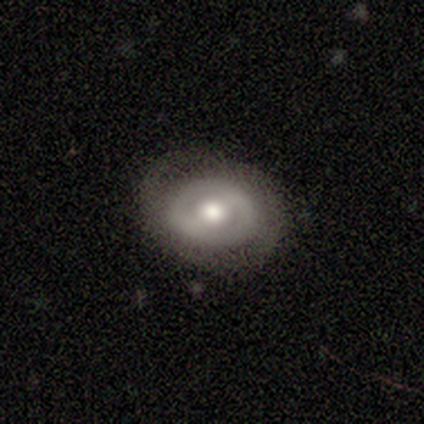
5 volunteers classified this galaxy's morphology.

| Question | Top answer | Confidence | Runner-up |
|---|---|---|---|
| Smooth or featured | featured or disk | 80% | smooth (20%) |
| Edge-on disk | no | 100% | — |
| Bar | weak | 100% | — |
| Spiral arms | yes | 75% | no (25%) |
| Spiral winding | loose | 67% | medium (33%) |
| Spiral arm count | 2 | 67% | can't tell (33%) |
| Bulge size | moderate | 75% | small (25%) |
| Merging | none | 80% | minor disturbance (20%) |